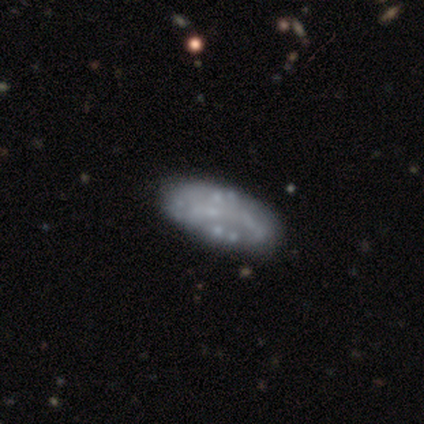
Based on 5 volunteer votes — This is clearly a featured or disk galaxy (100%). It is clearly not viewed edge-on (100%). Bar: clearly no (100%). Spiral arm pattern: clearly no (80%). Central bulge: clearly none (100%). Merging: clearly none (80%).